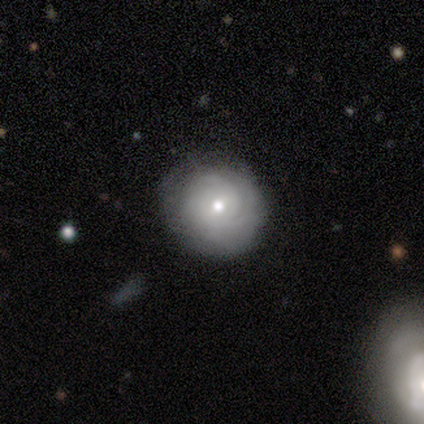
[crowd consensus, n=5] Volunteers were most divided on "smooth or featured": smooth: 80%, featured or disk: 20%, star or artifact: 0%. More confident: how rounded — round (100%); merging — none (80%).